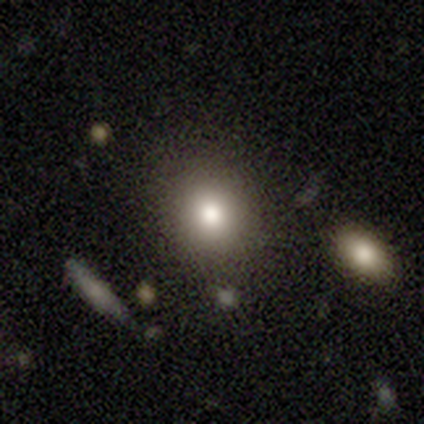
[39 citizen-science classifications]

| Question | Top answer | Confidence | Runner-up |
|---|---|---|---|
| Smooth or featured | smooth | 90% | featured or disk (8%) |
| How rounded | round | 60% | in between (40%) |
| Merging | none | 87% | merger (8%) |